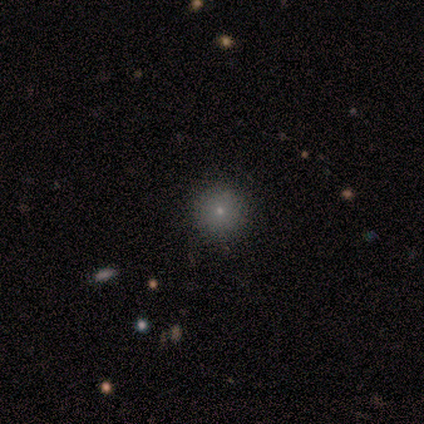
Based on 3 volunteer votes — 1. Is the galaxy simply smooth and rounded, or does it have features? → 67% smooth, 33% star or artifact, 0% featured or disk.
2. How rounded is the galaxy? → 100% round, 0% in between, 0% cigar-shaped.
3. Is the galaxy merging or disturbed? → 100% none, 0% minor disturbance, 0% major disturbance, 0% merger.